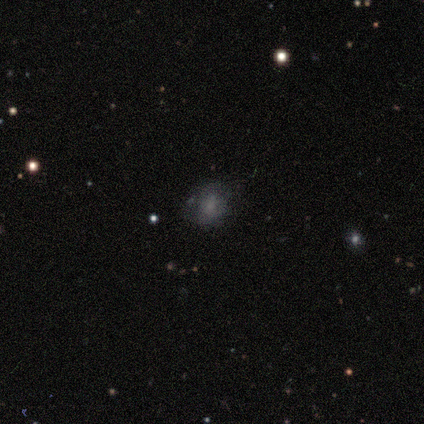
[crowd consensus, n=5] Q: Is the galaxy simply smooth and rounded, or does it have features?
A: smooth — 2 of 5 (40%, tied with star or artifact).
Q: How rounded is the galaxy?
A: round — 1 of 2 (50%, tied with in between).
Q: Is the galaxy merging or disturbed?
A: none — 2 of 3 (67%).